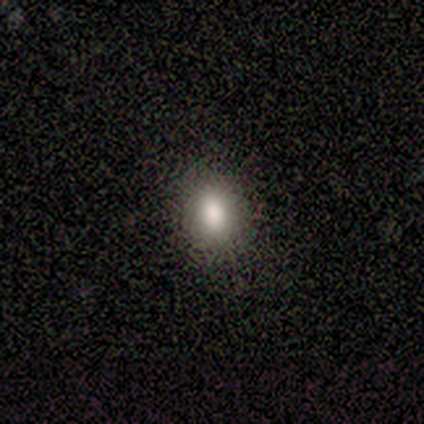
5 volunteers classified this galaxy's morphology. smooth_or_featured: smooth (p=0.60) [alt: star or artifact p=0.40]
how_rounded: in between (p=0.67) [alt: cigar-shaped p=0.33]
merging: none (p=1.00)